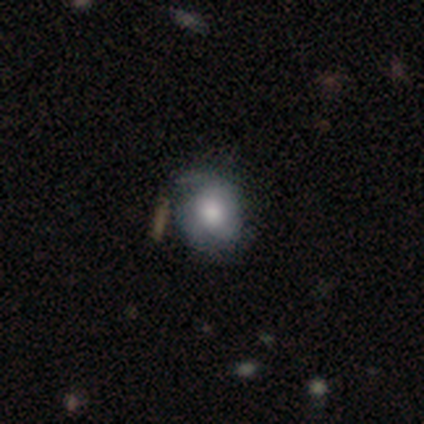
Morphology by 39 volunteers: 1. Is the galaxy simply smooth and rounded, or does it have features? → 54% featured or disk, 46% smooth, 0% star or artifact.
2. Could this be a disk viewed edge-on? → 100% no, 0% yes.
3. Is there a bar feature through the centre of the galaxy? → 86% no, 14% weak, 0% strong.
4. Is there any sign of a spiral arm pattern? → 86% yes, 14% no.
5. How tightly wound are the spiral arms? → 50% tight, 28% medium, 22% loose.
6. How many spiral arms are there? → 39% 2, 22% 1, 22% can't tell, 17% 3, 0% 4, 0% more than 4.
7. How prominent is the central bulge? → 48% large, 38% moderate, 10% small, 5% dominant, 0% none.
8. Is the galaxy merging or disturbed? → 74% none, 15% minor disturbance, 10% major disturbance, 0% merger.